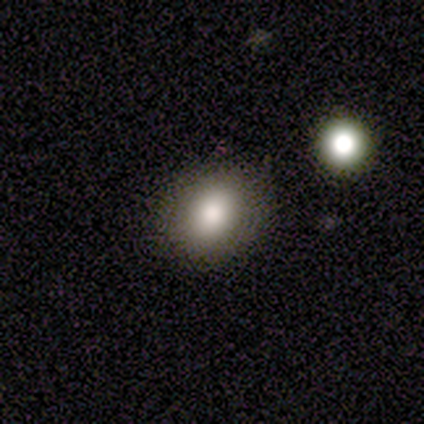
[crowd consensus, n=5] Smooth or featured?
  - smooth: 80% *
  - featured or disk: 20%
  - star or artifact: 0%
How rounded?
  - round: 75% *
  - in between: 25%
  - cigar-shaped: 0%
Merging?
  - none: 80% *
  - major disturbance: 20%
  - minor disturbance: 0%
  - merger: 0%